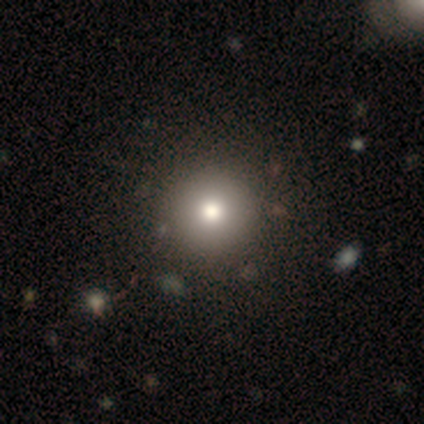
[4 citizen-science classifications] A smooth galaxy with no disk features (75%) that is round (100%). Merging: none (100%).